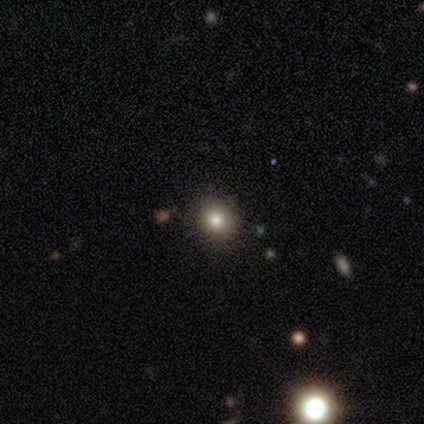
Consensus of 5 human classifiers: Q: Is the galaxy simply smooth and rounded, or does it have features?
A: smooth — 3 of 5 (60%).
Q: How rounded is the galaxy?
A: round — 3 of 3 (100%).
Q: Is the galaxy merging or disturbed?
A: none — 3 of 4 (75%).